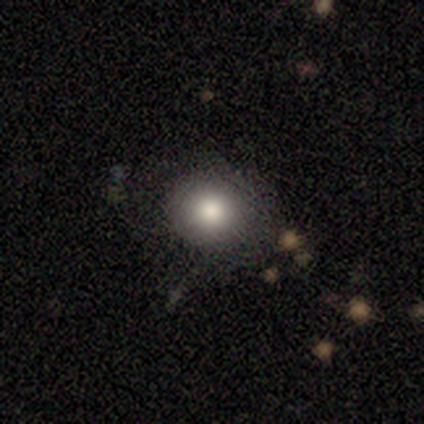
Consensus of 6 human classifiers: This appears to be a smooth galaxy with no disk features (100%) that is round (100%). Merging: none (100%).